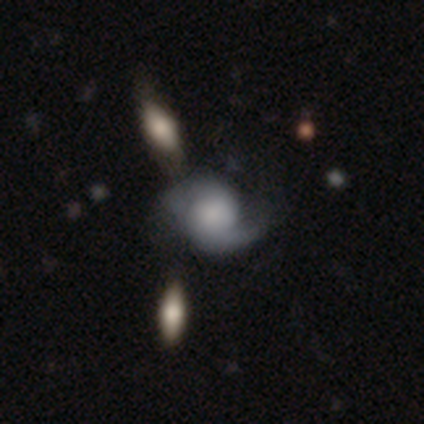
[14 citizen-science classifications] featured or disk 64%, smooth 29%, star or artifact 7%. Down the decision tree: edge-on disk — no (100%); bar — no (100%); spiral arms — yes (100%); spiral arm count — 2 (89%); spiral winding — medium (78%); bulge size — large (44%); merging — none (62%).